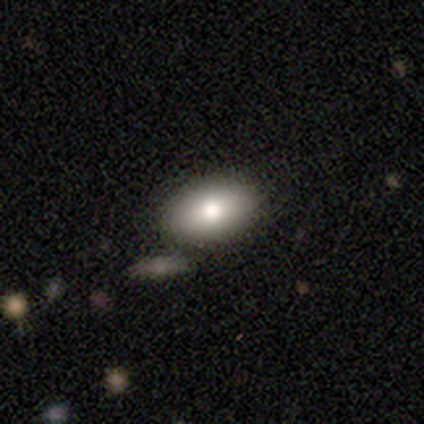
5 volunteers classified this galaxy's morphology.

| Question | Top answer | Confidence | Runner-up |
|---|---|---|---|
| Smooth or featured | smooth | 80% | star or artifact (20%) |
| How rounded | in between | 75% | round (25%) |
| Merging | none | 75% | merger (25%) |